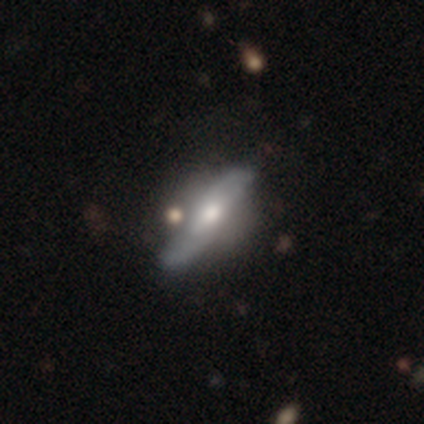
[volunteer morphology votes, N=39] Volunteers were most divided on "edge-on disk": yes: 58%, no: 42%. More confident: smooth or featured — featured or disk (67%); edge-on bulge — rounded (60%); merging — none (57%).